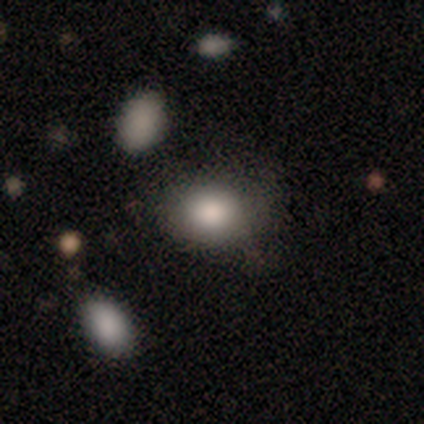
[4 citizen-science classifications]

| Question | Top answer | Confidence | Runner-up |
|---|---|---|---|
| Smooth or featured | smooth | 75% | star or artifact (25%) |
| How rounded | in between | 67% | round (33%) |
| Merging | none | 100% | — |